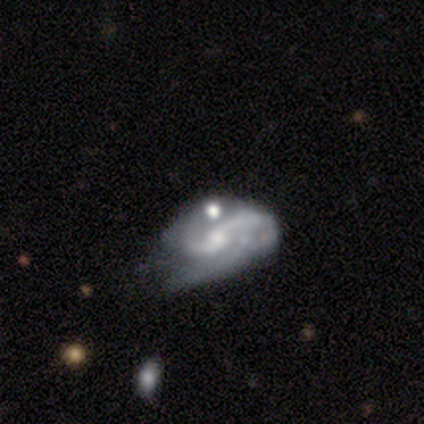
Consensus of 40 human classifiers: smooth-or-featured: featured or disk: 88% | star or artifact: 8% | smooth: 5%
  disk-edge-on: no: 97% | yes: 3%
    bar: no: 56% | weak: 41% | strong: 3%
    has-spiral-arms: yes: 94% | no: 6%
      spiral-winding: loose: 50% | medium: 38% | tight: 12%
      spiral-arm-count: 2: 81% | can't tell: 9% | 3: 6% | 1: 3% | 4: 0% | more than 4: 0%
    bulge-size: small: 53% | moderate: 26% | none: 12% | large: 6% | dominant: 3%
  merging: major disturbance: 35% | minor disturbance: 27% | merger: 22% | none: 16%